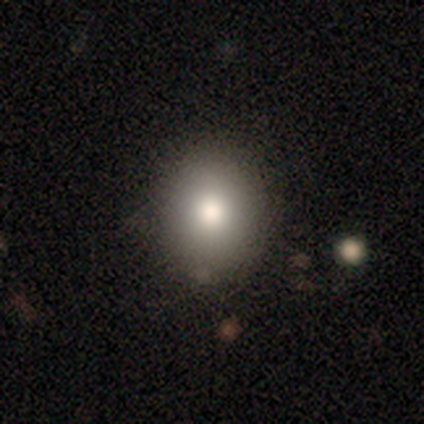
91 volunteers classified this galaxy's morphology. Smooth or featured? 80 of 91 (88%) said smooth. How rounded? 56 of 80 (70%) said round. Merging? 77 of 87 (89%) said none.